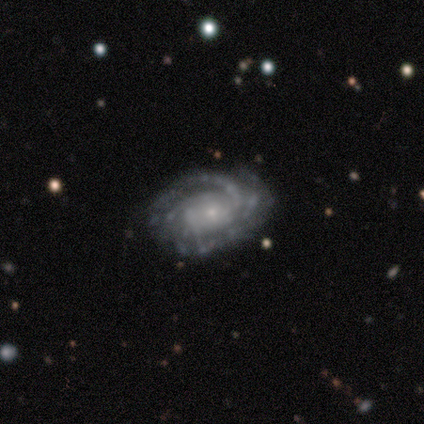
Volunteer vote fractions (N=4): This is clearly a featured or disk galaxy (100%). It is clearly not viewed edge-on (100%). Bar: likely no (75%). Spiral arm pattern: clearly yes (100%). Spiral arm count: possibly 2 (50%, tied with can't tell). Spiral winding: clearly tight (100%). Central bulge: likely small (75%). Merging: likely none (75%).